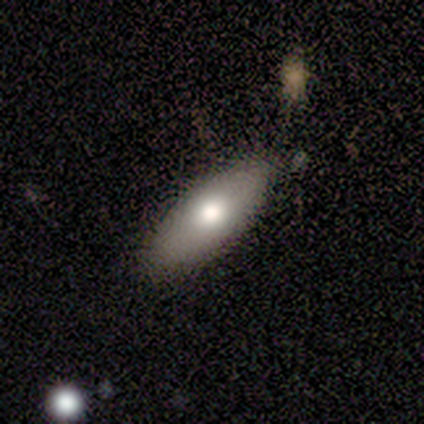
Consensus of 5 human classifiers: This appears to be a smooth galaxy with no disk features (80%) that is in between round and cigar-shaped (75%). Merging: none (80%).